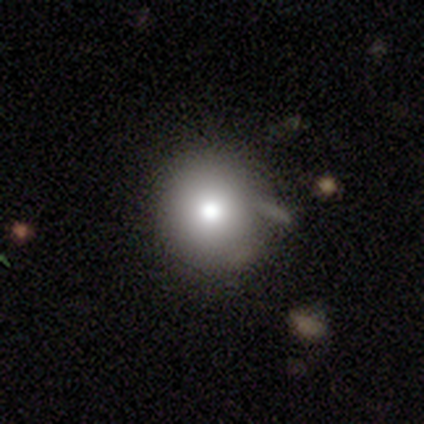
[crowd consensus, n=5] Volunteers were most divided on "merging" (2-way tie): none: 50%, minor disturbance: 50%, major disturbance: 0%, merger: 0%. More confident: how rounded — round (100%); smooth or featured — smooth (60%).